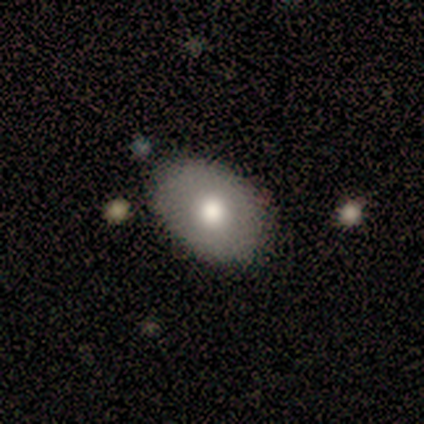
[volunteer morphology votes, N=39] smooth-or-featured: smooth: 72% | featured or disk: 26% | star or artifact: 3%
  how-rounded: in between: 96% | round: 4% | cigar-shaped: 0%
  merging: none: 82% | minor disturbance: 18% | major disturbance: 0% | merger: 0%